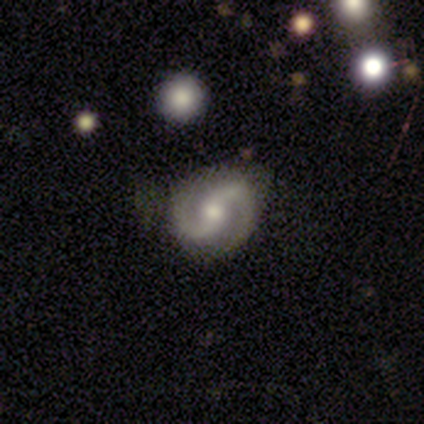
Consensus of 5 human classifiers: Q: Smooth or featured?
A: featured or disk (100%)
Q: Edge-on disk?
A: no (100%)
Q: Bar?
A: strong (40%); tied with: weak (40%)
Q: Spiral arms?
A: yes (100%)
Q: Spiral winding?
A: medium (60%); runner-up: tight (20%)
Q: Spiral arm count?
A: 2 (100%)
Q: Bulge size?
A: moderate (100%)
Q: Merging?
A: none (80%); runner-up: minor disturbance (20%)